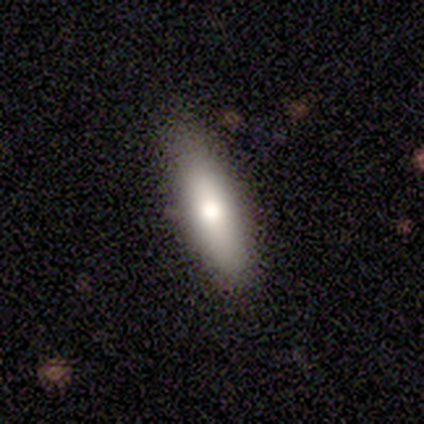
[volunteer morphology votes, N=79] This is clearly a smooth galaxy (81%). How rounded: possibly cigar-shaped (53%). Merging: possibly none (56%).